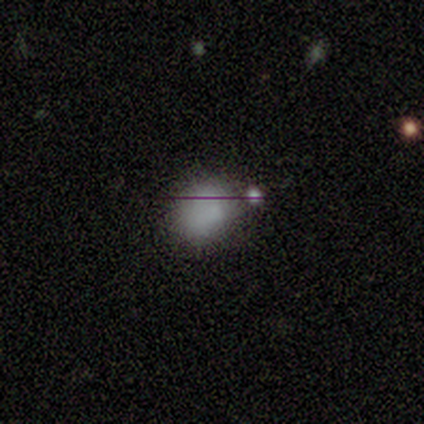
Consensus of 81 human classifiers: Smooth or featured? smooth (65%)
How rounded? round (62%)
Merging? none (31%)